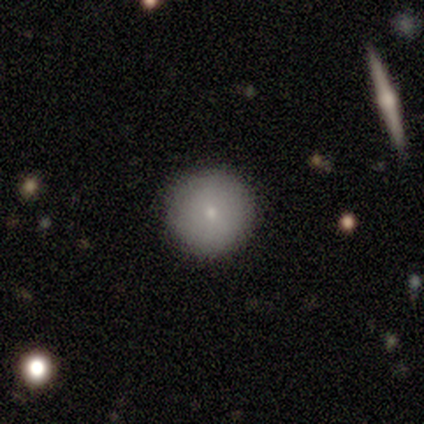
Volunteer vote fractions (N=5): Overall: smooth (80%). How rounded: round (100%). Merging: none (80%).